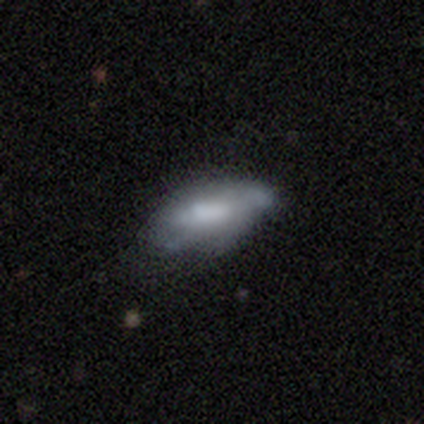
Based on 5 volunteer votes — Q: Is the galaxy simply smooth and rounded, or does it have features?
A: featured or disk — 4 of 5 (80%).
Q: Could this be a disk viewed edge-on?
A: no — 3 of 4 (75%).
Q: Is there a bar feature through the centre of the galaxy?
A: no — 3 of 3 (100%).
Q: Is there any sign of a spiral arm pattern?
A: no — 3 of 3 (100%).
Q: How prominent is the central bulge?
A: moderate — 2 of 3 (67%).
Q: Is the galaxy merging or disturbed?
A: none — 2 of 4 (50%, tied with major disturbance).